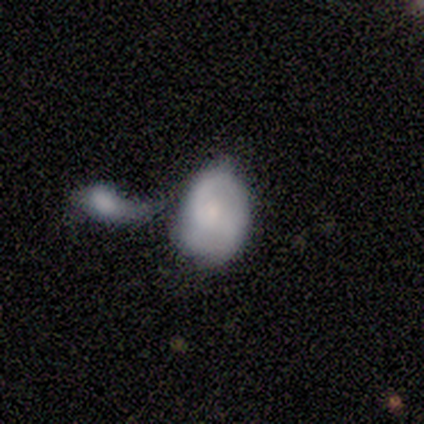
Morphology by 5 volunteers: Overall: smooth (60%; featured or disk 40%). How rounded: in between (100%). Merging: merger (80%).